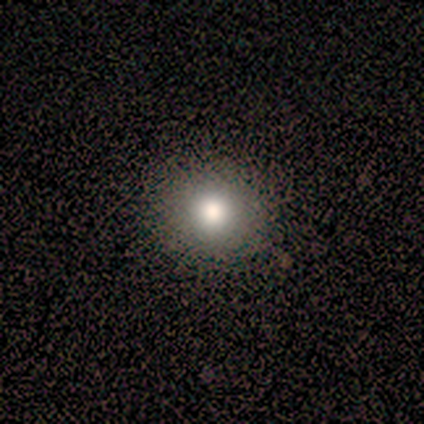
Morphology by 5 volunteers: smooth-or-featured: smooth: 80% | star or artifact: 20% | featured or disk: 0%
  how-rounded: round: 100% | in between: 0% | cigar-shaped: 0%
  merging: none: 75% | minor disturbance: 25% | major disturbance: 0% | merger: 0%